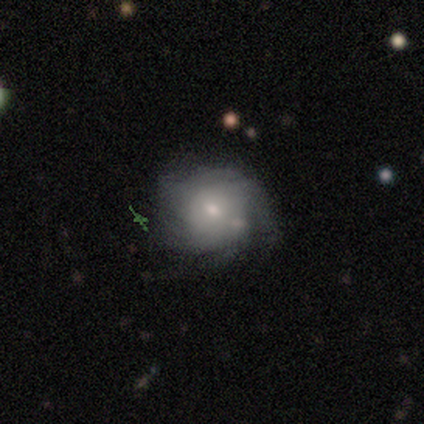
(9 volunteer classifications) This appears to be a smooth galaxy with no disk features (44%, tied with featured or disk) that is round (100%). Merging: none (62%).